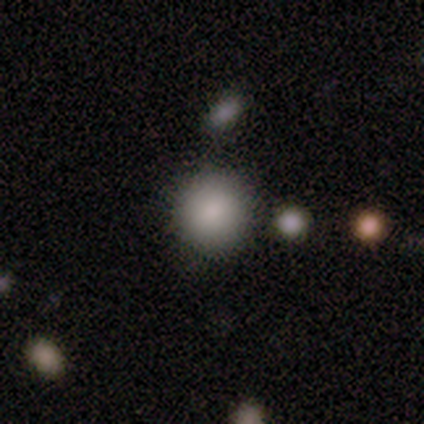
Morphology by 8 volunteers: smooth-or-featured: smooth: 100% | featured or disk: 0% | star or artifact: 0%
  how-rounded: round: 88% | in between: 12% | cigar-shaped: 0%
  merging: none: 75% | minor disturbance: 25% | major disturbance: 0% | merger: 0%